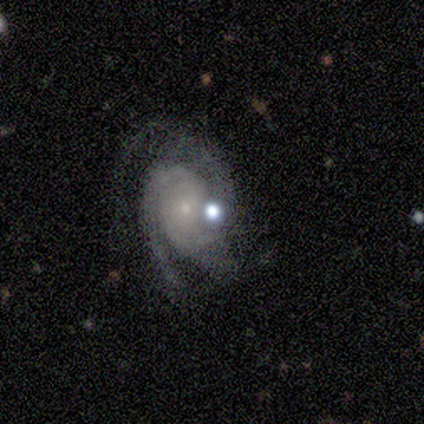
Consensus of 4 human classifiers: Q: Smooth or featured?
A: featured or disk (75%); runner-up: star or artifact (25%)
Q: Edge-on disk?
A: no (100%)
Q: Bar?
A: no (100%)
Q: Spiral arms?
A: yes (100%)
Q: Spiral winding?
A: tight (100%)
Q: Spiral arm count?
A: 3 (67%); runner-up: 2 (33%)
Q: Bulge size?
A: small (100%)
Q: Merging?
A: none (67%); runner-up: minor disturbance (33%)